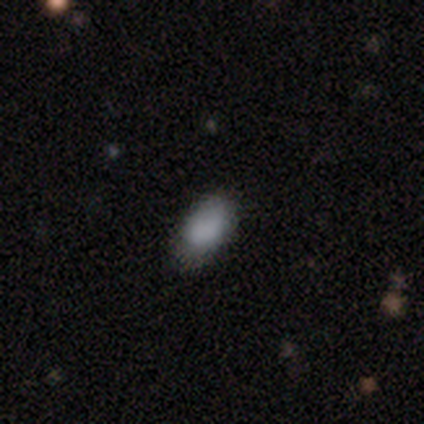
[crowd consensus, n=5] Volunteers were most divided on "merging" (2-way tie): none: 50%, minor disturbance: 50%, major disturbance: 0%, merger: 0%. More confident: how rounded — in between (100%); smooth or featured — smooth (60%).